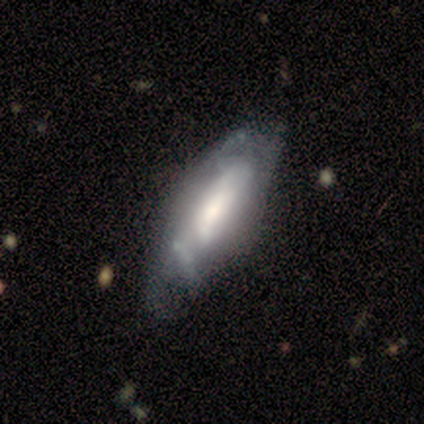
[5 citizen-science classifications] Smooth or featured: smooth — 40% (tied with featured or disk — 40%)
How rounded: in between — 50% (tied with cigar-shaped — 50%)
Merging: none — 50% (tied with minor disturbance — 50%)